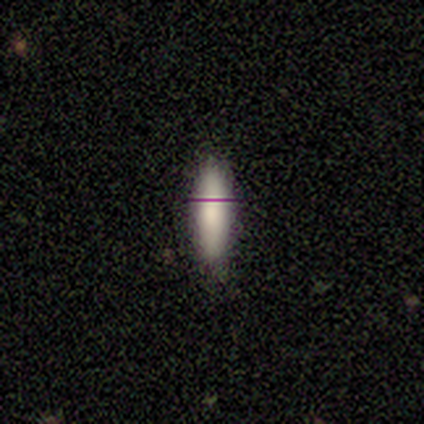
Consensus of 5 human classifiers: This appears to be a smooth galaxy with no disk features (80%) that is in between round and cigar-shaped (75%). Merging: none (100%).